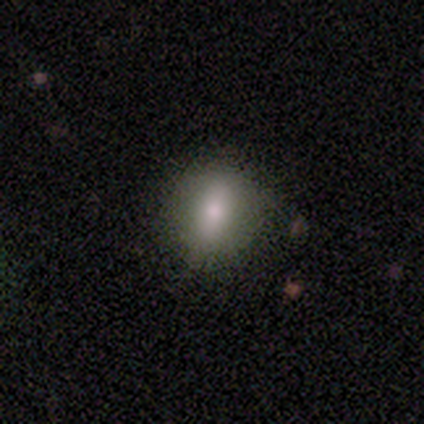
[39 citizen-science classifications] Q: Smooth or featured?
A: smooth (64%); runner-up: featured or disk (26%)
Q: How rounded?
A: in between (56%); runner-up: round (36%)
Q: Merging?
A: none (77%); runner-up: minor disturbance (20%)